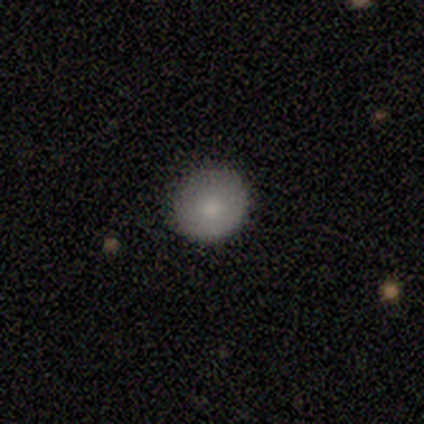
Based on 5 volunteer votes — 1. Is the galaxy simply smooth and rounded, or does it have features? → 100% smooth, 0% featured or disk, 0% star or artifact.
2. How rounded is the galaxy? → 100% round, 0% in between, 0% cigar-shaped.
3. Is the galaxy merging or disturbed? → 60% none, 40% minor disturbance, 0% major disturbance, 0% merger.